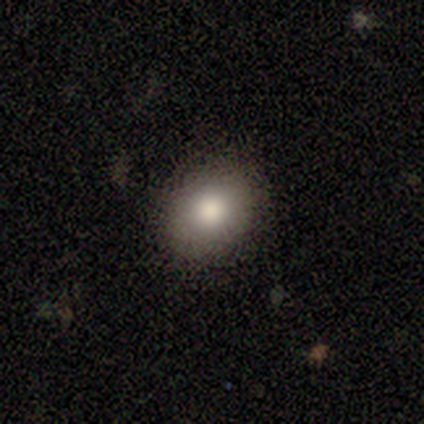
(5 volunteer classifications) Smooth or featured? 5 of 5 (100%) said smooth. How rounded? 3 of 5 (60%) said round. Merging? 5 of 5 (100%) said none.